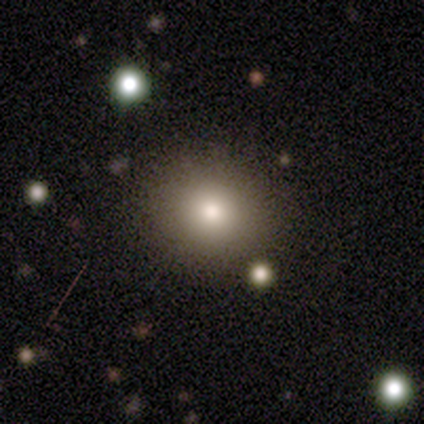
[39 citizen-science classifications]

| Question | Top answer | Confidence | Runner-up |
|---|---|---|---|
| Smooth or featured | smooth | 82% | star or artifact (10%) |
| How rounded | round | 75% | in between (25%) |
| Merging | none | 86% | minor disturbance (11%) |